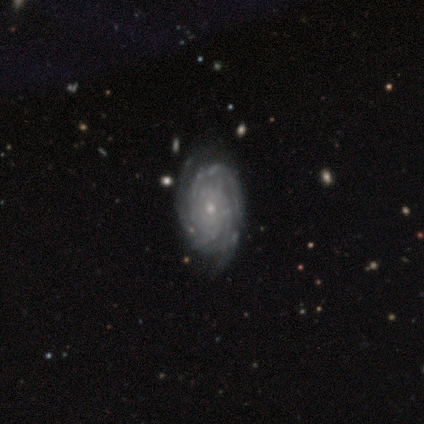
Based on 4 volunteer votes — smooth_or_featured: featured or disk (p=0.75) [alt: smooth p=0.25]
disk_edge_on: no (p=1.00)
bar: no (p=1.00)
has_spiral_arms: yes (p=1.00)
spiral_winding: tight (p=1.00)
spiral_arm_count: 3 (p=0.33) [tied with: more than 4 p=0.33, can't tell p=0.33]
bulge_size: small (p=1.00)
merging: none (p=1.00)